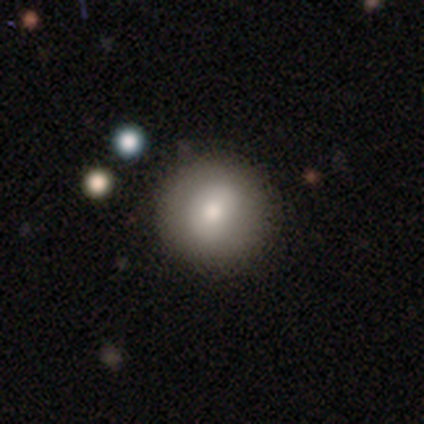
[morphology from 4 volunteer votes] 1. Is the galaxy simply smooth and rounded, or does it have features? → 100% smooth, 0% featured or disk, 0% star or artifact.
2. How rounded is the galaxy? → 100% round, 0% in between, 0% cigar-shaped.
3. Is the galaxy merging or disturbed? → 75% none, 25% minor disturbance, 0% major disturbance, 0% merger.